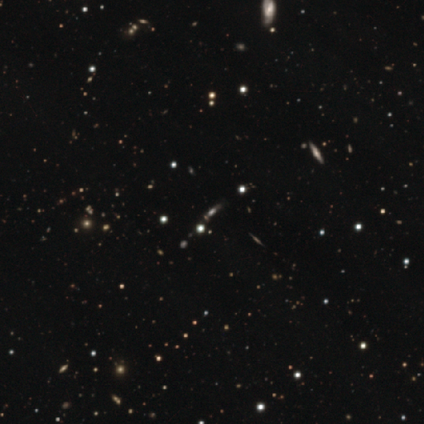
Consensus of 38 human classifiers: star or artifact 76%, smooth 13%, featured or disk 11%.